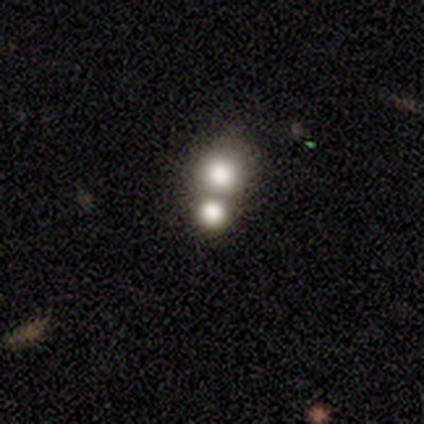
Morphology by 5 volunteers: Smooth or featured: smooth — 60% (featured or disk — 20%)
How rounded: round — 100%
Merging: merger — 75% (none — 25%)